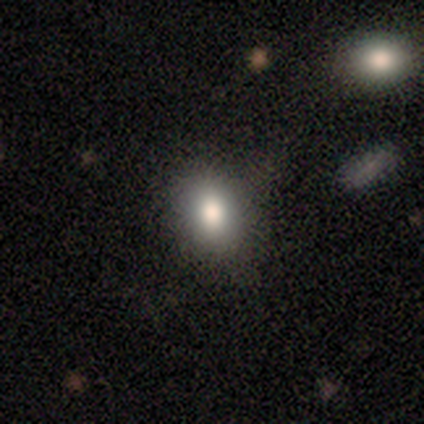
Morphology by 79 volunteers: smooth-or-featured: smooth: 71% | star or artifact: 23% | featured or disk: 6%
  how-rounded: round: 50% | in between: 48% | cigar-shaped: 2%
  merging: none: 80% | minor disturbance: 10% | major disturbance: 8% | merger: 2%